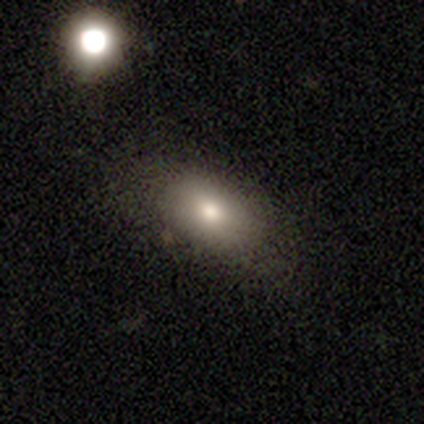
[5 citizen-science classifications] smooth 80%, star or artifact 20%, featured or disk 0%. Down the decision tree: how rounded — in between (75%); merging — none (75%).